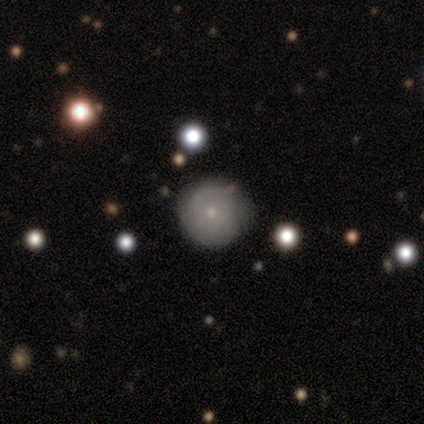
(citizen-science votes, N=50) smooth_or_featured: featured or disk (p=0.60) [alt: smooth p=0.32]
disk_edge_on: no (p=0.97) [alt: yes p=0.03]
bar: no (p=0.97) [alt: strong p=0.03]
has_spiral_arms: yes (p=0.52) [alt: no p=0.48]
spiral_winding: tight (p=0.87) [alt: medium p=0.13]
spiral_arm_count: can't tell (p=0.47) [alt: 2 p=0.20]
bulge_size: small (p=0.79) [alt: moderate p=0.21]
merging: none (p=0.80) [alt: minor disturbance p=0.15]